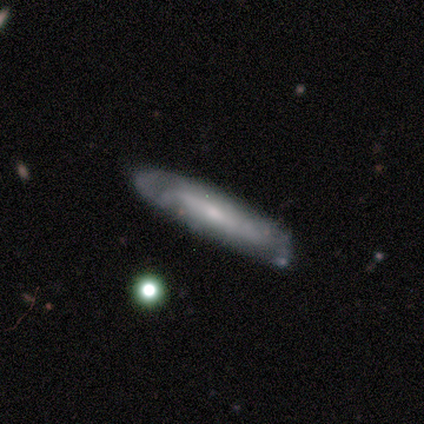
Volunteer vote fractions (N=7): A smooth galaxy with no disk features (57%) that is cigar-shaped (100%). Merging: none (83%).